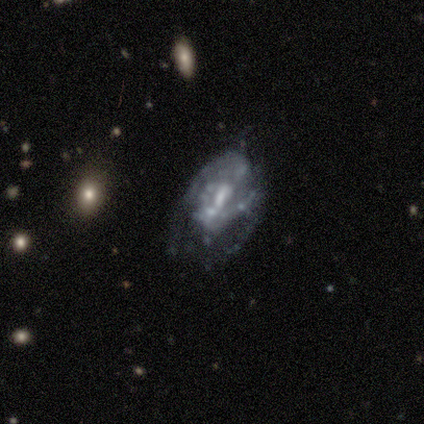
This is clearly a featured or disk galaxy (80%). It is clearly not viewed edge-on (100%). Bar: possibly weak (50%). Spiral arm pattern: clearly yes (100%). Spiral arm count: likely can't tell (75%). Spiral winding: possibly tight (50%, tied with medium). Central bulge: clearly small (100%). Merging: likely none (60%).